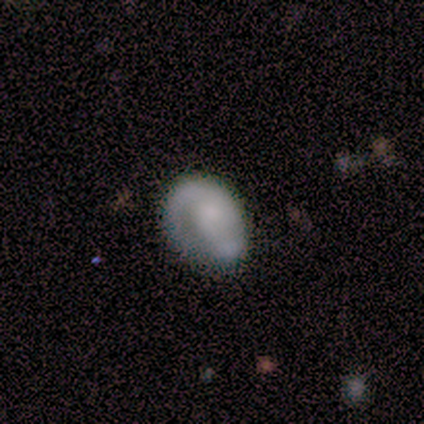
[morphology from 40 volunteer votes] A smooth galaxy with no disk features (52%) that is in between round and cigar-shaped (67%). Merging: none (51%).